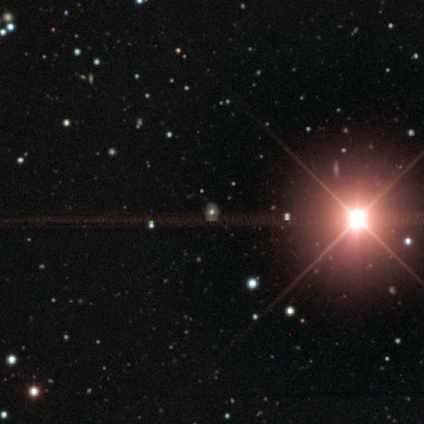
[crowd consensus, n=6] smooth-or-featured: star or artifact: 67% | smooth: 17% | featured or disk: 17%